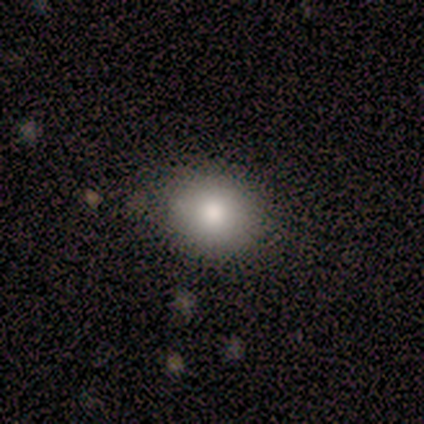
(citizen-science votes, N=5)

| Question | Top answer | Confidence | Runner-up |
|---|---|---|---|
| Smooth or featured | smooth | 100% | — |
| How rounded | round | 100% | — |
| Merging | none | 60% | minor disturbance (40%) |